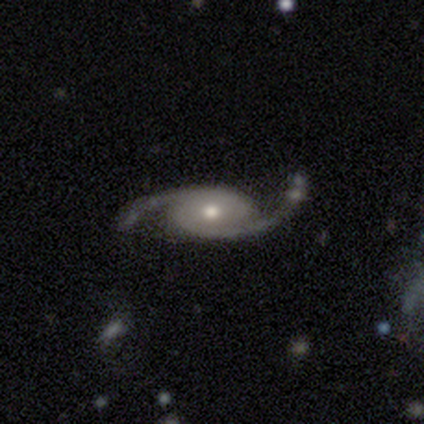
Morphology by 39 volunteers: featured or disk 92%, star or artifact 8%, smooth 0%. Down the decision tree: edge-on disk — no (92%); bar — no (64%); spiral arms — yes (100%); spiral arm count — 2 (94%); spiral winding — loose (48%); bulge size — moderate (64%); merging — none (64%).